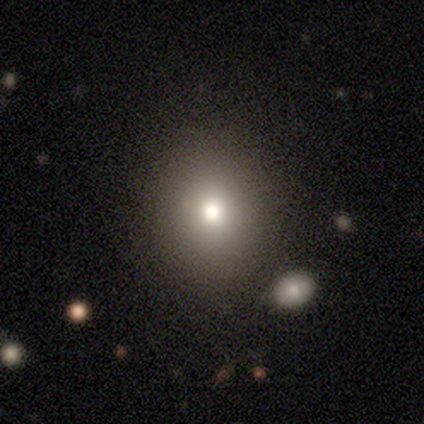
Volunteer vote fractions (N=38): Smooth or featured: smooth — 76% (featured or disk — 13%)
How rounded: round — 69% (in between — 31%)
Merging: none — 85% (minor disturbance — 9%)